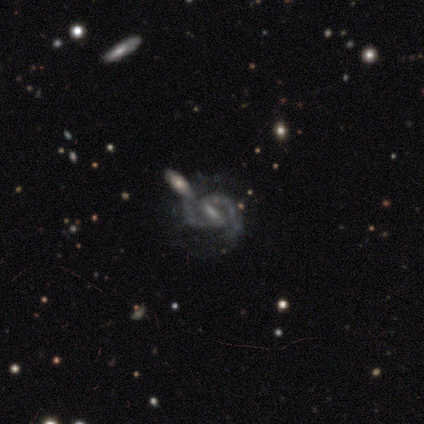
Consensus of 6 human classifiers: Q: Smooth or featured?
A: featured or disk (100%)
Q: Edge-on disk?
A: no (100%)
Q: Bar?
A: strong (83%); runner-up: weak (17%)
Q: Spiral arms?
A: yes (100%)
Q: Spiral winding?
A: tight (50%); runner-up: medium (33%)
Q: Spiral arm count?
A: 2 (100%)
Q: Bulge size?
A: small (50%); runner-up: none (33%)
Q: Merging?
A: none (67%); runner-up: minor disturbance (17%)